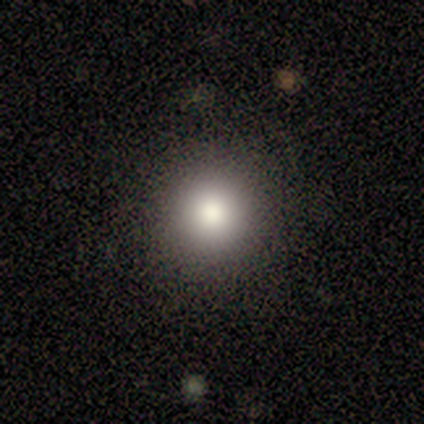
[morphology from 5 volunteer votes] Smooth or featured? smooth (60%)
How rounded? round (100%)
Merging? none (100%)